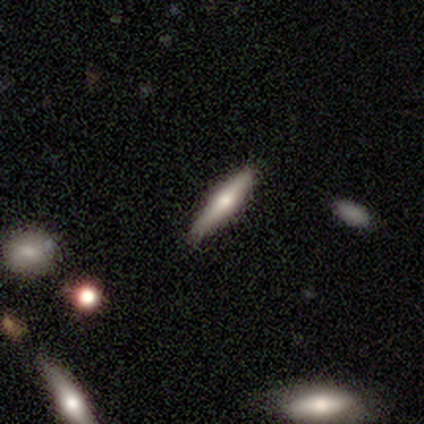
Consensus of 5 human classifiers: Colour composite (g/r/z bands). It shows a smooth galaxy with no disk features (80%) that is cigar-shaped (100%). Merging: none (75%).